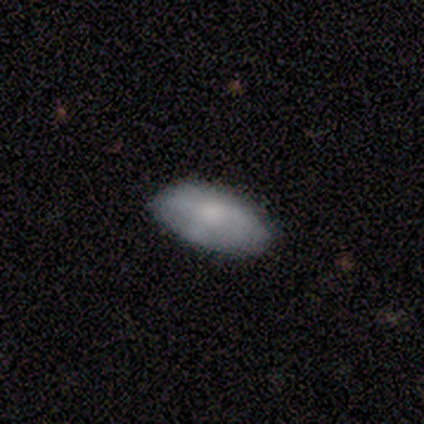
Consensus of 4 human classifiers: Overall: smooth (100%). How rounded: in between (100%). Merging: none (75%).